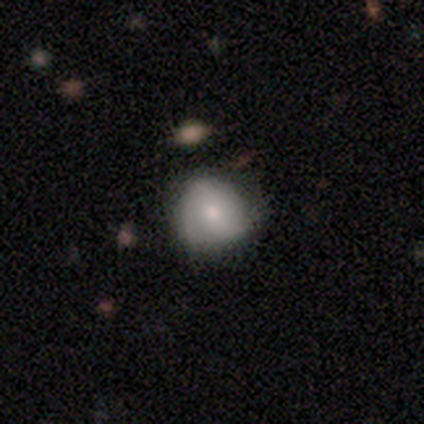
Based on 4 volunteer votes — Smooth or featured: smooth — 50% (tied with featured or disk — 50%)
How rounded: round — 100%
Merging: none — 100%